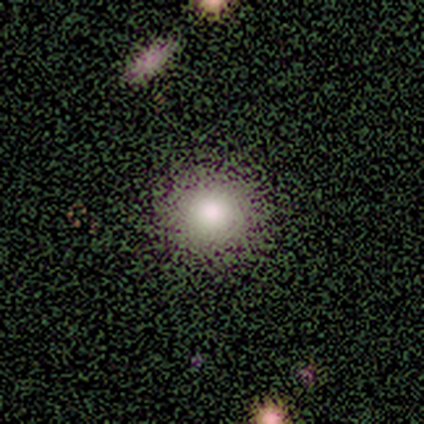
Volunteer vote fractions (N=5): smooth-or-featured: smooth: 80% | star or artifact: 20% | featured or disk: 0%
  how-rounded: round: 100% | in between: 0% | cigar-shaped: 0%
  merging: none: 100% | minor disturbance: 0% | major disturbance: 0% | merger: 0%